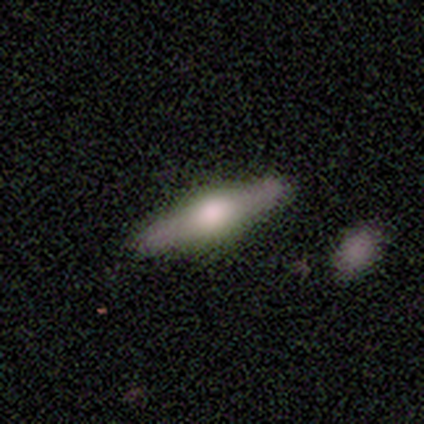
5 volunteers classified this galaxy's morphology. type=featured or disk (80%); edge-on=yes (75%); edge-on bulge=rounded (100%); merging=none (100%).